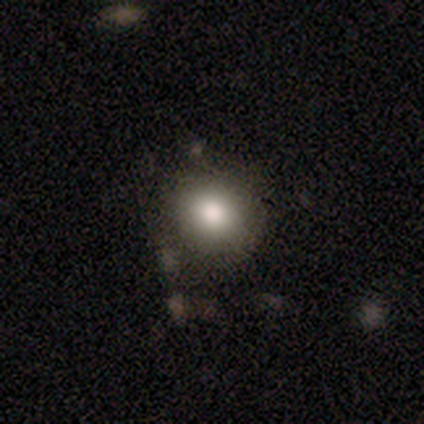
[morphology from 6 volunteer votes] A smooth galaxy with no disk features (83%) that is round (100%).

Vote fractions:
- Smooth or featured? smooth: 83% / featured or disk: 17% / star or artifact: 0%
- How rounded? round: 100% / in between: 0% / cigar-shaped: 0%
- Merging? none: 100% / minor disturbance: 0% / major disturbance: 0% / merger: 0%